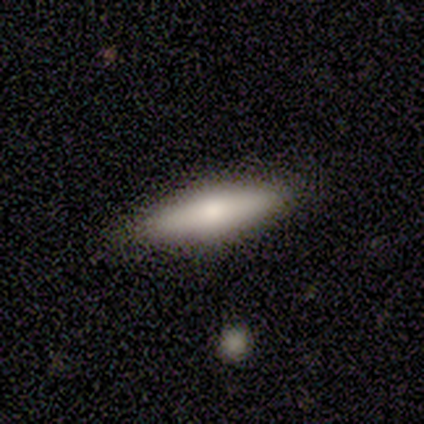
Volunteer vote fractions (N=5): smooth-or-featured: smooth: 80% | featured or disk: 20% | star or artifact: 0%
  how-rounded: cigar-shaped: 100% | round: 0% | in between: 0%
  merging: none: 80% | minor disturbance: 20% | major disturbance: 0% | merger: 0%